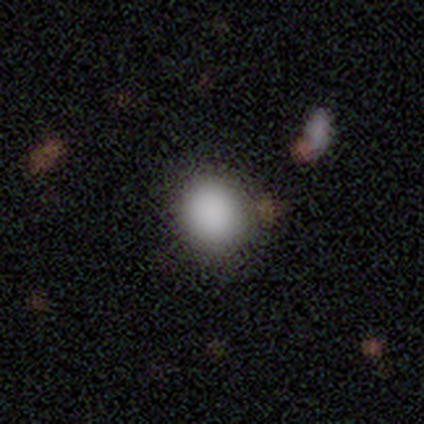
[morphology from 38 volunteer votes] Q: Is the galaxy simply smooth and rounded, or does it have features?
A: smooth — 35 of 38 (92%).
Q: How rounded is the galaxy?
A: round — 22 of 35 (63%).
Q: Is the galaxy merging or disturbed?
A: none — 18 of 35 (51%).